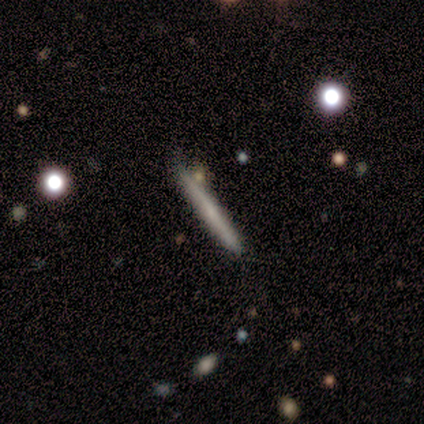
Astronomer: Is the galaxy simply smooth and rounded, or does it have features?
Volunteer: smooth — 51% (runner-up: featured or disk, 39%).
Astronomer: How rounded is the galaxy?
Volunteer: cigar-shaped — 100%.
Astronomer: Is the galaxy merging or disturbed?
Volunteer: none — 68%.